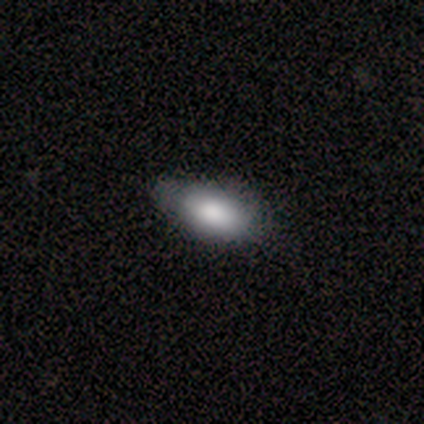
Morphology: type=smooth (100%); roundness=in between (100%); merging=none (75%).